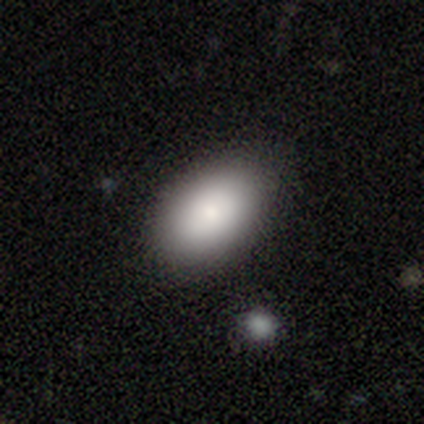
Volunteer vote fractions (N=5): Volunteers were most divided on "merging": none: 60%, minor disturbance: 20%, merger: 20%, major disturbance: 0%. More confident: smooth or featured — smooth (100%); how rounded — in between (100%).